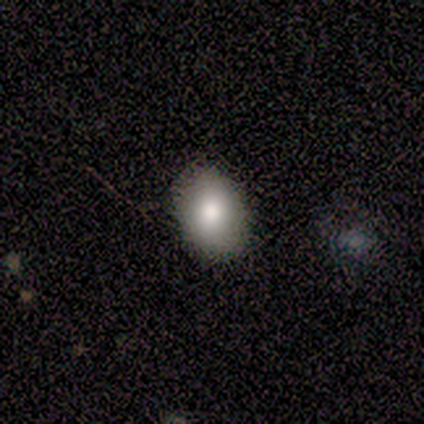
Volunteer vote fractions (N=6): Overall: smooth (83%). How rounded: in between (100%). Merging: none (100%).